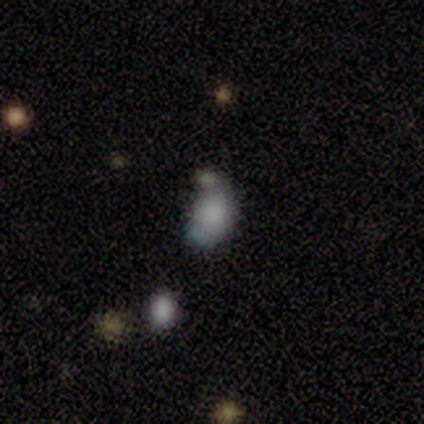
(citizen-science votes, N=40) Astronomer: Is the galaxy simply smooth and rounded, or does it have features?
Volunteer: smooth — 55% (runner-up: featured or disk, 32%).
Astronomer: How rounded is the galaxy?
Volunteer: in between — 91%.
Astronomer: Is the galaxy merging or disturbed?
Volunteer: none — 31%, tied with minor disturbance at 31%.